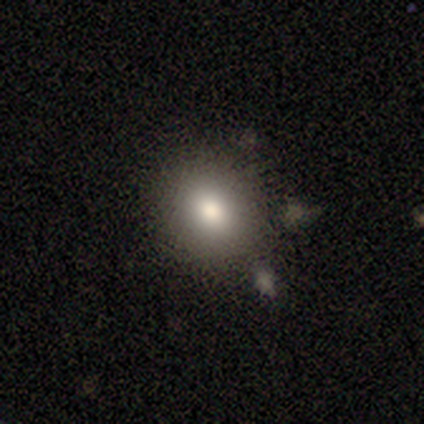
This is clearly a smooth galaxy (100%). How rounded: possibly round (50%, tied with in between). Merging: possibly none (50%, tied with minor disturbance).